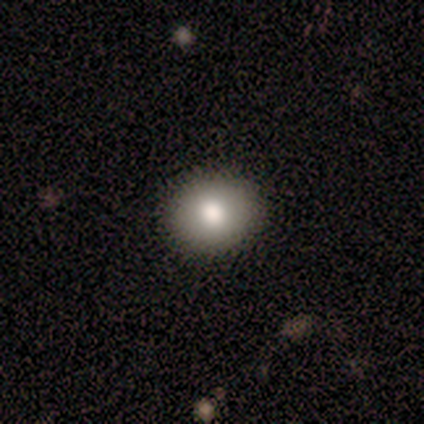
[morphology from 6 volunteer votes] Q: Smooth or featured?
A: smooth (83%); runner-up: featured or disk (17%)
Q: How rounded?
A: round (80%); runner-up: in between (20%)
Q: Merging?
A: none (100%)